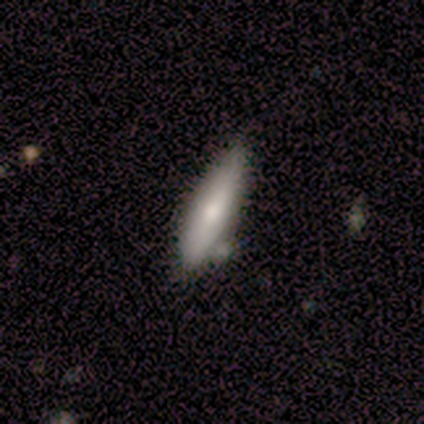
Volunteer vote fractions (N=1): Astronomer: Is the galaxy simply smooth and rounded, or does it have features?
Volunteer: smooth — 100%.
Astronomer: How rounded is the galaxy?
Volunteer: cigar-shaped — 100%.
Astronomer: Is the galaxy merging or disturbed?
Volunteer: none — 100%.